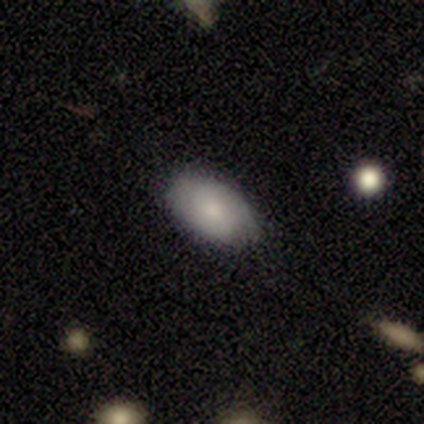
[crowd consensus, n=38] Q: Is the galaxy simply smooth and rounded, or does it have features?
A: smooth — 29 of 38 (76%).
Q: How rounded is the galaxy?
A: in between — 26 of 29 (90%).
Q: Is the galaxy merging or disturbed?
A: none — 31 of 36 (86%).